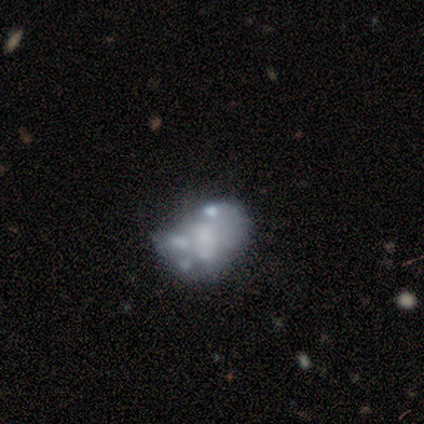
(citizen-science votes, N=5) A featured or disk galaxy (100%) with no bar (100%), no spiral arms (100%) and no central bulge (80%). Merging: none (40%, tied with minor disturbance).